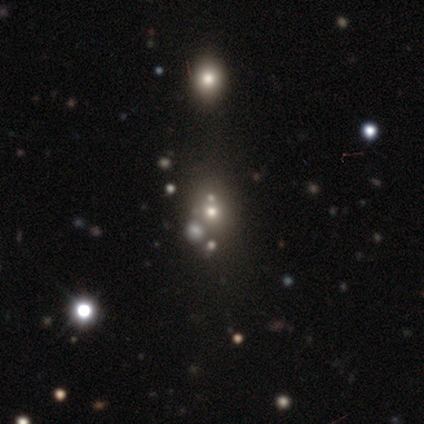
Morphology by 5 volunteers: type=smooth (60%); roundness=round (100%); merging=none (67%).